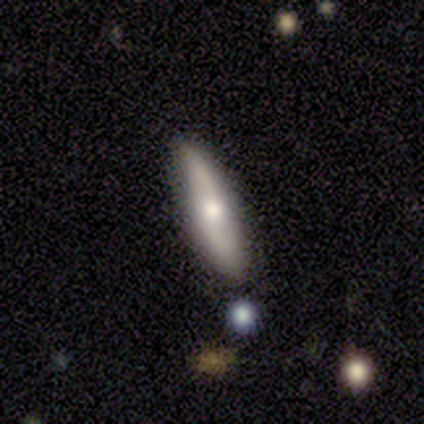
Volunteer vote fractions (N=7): smooth-or-featured: smooth: 57% | featured or disk: 43% | star or artifact: 0%
  how-rounded: cigar-shaped: 75% | in between: 25% | round: 0%
  merging: none: 100% | minor disturbance: 0% | major disturbance: 0% | merger: 0%